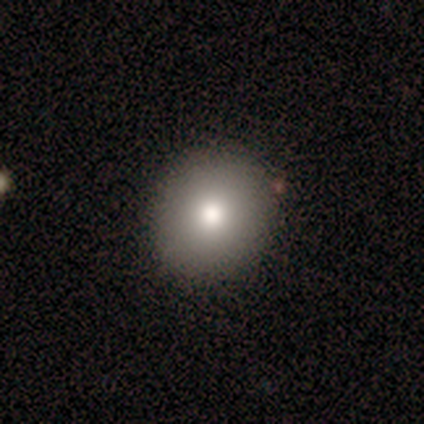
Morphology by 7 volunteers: Smooth or featured? 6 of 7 (86%) said smooth. How rounded? 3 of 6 (50%, tied with in between) said round. Merging? 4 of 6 (67%) said none.